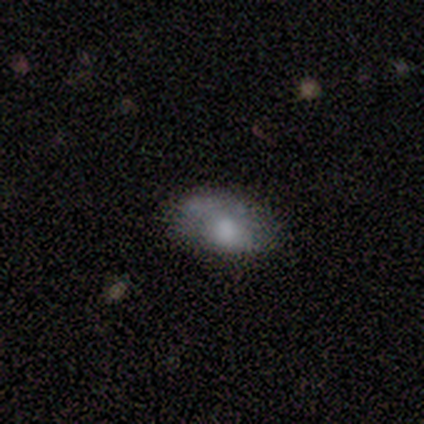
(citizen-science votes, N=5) Smooth or featured? smooth (80%)
How rounded? in between (100%)
Merging? none (50%)